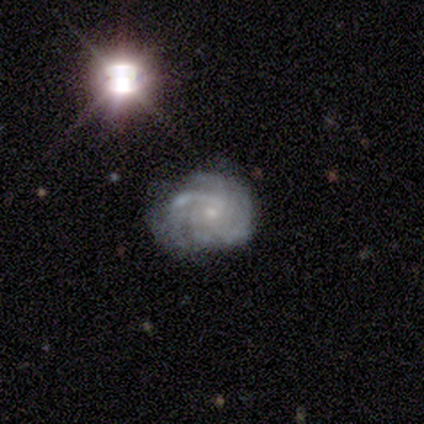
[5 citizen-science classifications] A featured or disk galaxy (60%) with no bar (67%), 2 (50%, tied with 4) tight (50%, tied with medium) spiral arms (67%) and a small central bulge (67%).

Vote fractions:
- Smooth or featured? featured or disk: 60% / smooth: 20% / star or artifact: 20%
- Edge-on disk? no: 100% / yes: 0%
- Bar? no: 67% / strong: 33% / weak: 0%
- Spiral arms? yes: 67% / no: 33%
- Spiral winding? tight: 50% (tied) / medium: 50% (tied) / loose: 0%
- Spiral arm count? 2: 50% (tied) / 4: 50% (tied) / 1: 0% / 3: 0% / more than 4: 0% / can't tell: 0%
- Bulge size? small: 67% / none: 33% / dominant: 0% / large: 0% / moderate: 0%
- Merging? minor disturbance: 50% / none: 25% / major disturbance: 25% / merger: 0%